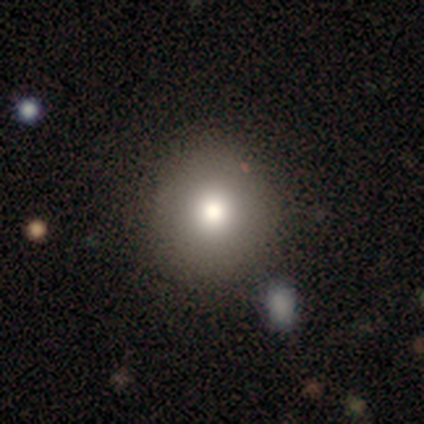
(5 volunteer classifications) Volunteers were most divided on "how rounded": round: 75%, in between: 25%, cigar-shaped: 0%. More confident: merging — none (100%); smooth or featured — smooth (80%).